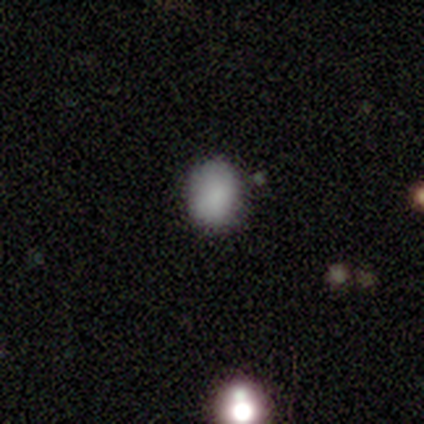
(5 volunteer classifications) This is clearly a smooth galaxy (80%). How rounded: clearly in between (100%). Merging: likely none (75%).